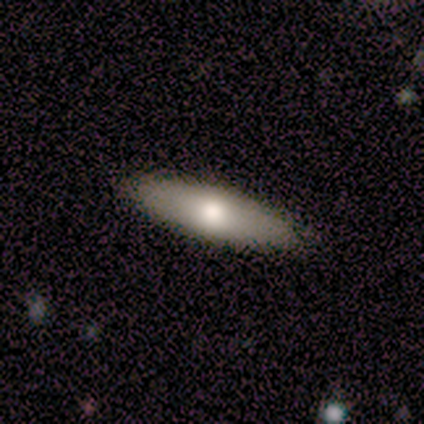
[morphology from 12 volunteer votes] A smooth galaxy with no disk features (83%) that is cigar-shaped (70%). Merging: none (83%).